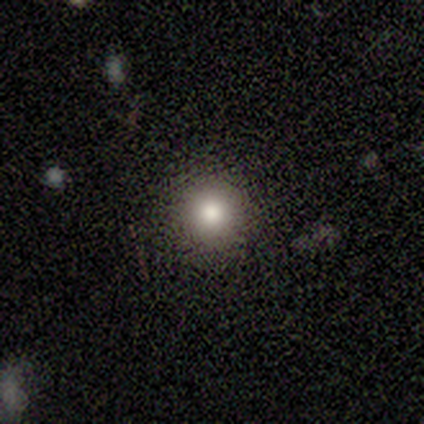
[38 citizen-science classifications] smooth-or-featured: smooth: 82% | star or artifact: 16% | featured or disk: 3%
  how-rounded: round: 94% | in between: 3% | cigar-shaped: 3%
  merging: none: 91% | minor disturbance: 6% | major disturbance: 3% | merger: 0%